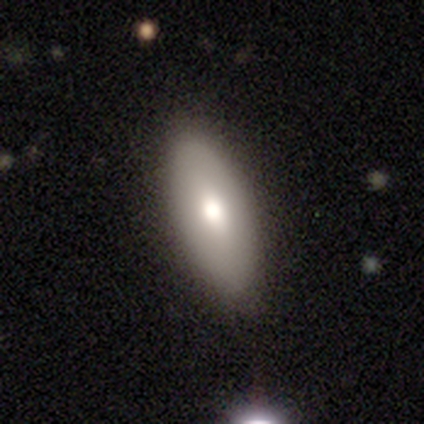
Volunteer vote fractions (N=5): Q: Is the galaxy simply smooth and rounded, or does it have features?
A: smooth — 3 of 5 (60%).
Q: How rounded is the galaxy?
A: in between — 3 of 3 (100%).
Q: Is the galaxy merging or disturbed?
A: none — 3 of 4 (75%).